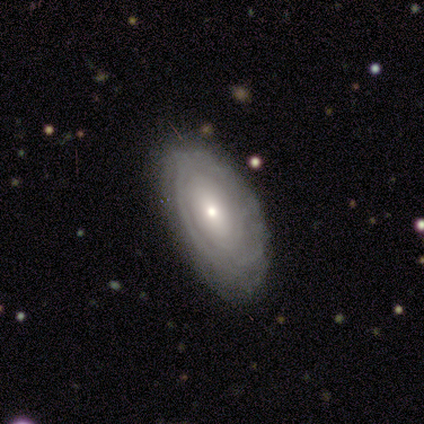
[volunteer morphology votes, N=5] smooth_or_featured: featured or disk (p=0.80) [alt: smooth p=0.20]
disk_edge_on: no (p=1.00)
bar: no (p=1.00)
has_spiral_arms: yes (p=0.50) [tied with: no p=0.50]
spiral_winding: tight (p=0.50) [tied with: medium p=0.50]
spiral_arm_count: can't tell (p=1.00)
bulge_size: moderate (p=0.50) [tied with: small p=0.50]
merging: none (p=0.80) [alt: minor disturbance p=0.20]